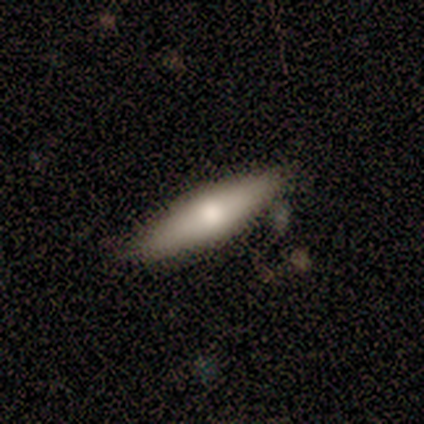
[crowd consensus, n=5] smooth-or-featured: smooth: 80% | featured or disk: 20% | star or artifact: 0%
  how-rounded: in between: 50% (tied) | cigar-shaped: 50% (tied) | round: 0%
  merging: none: 80% | major disturbance: 20% | minor disturbance: 0% | merger: 0%